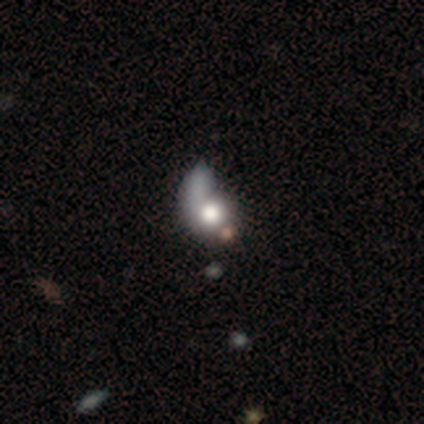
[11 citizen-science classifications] This is likely a featured or disk galaxy (64%). It is clearly not viewed edge-on (100%). Bar: clearly no (100%). Spiral arm pattern: possibly no (57%). Central bulge: likely large (71%). Merging: likely major disturbance (70%).